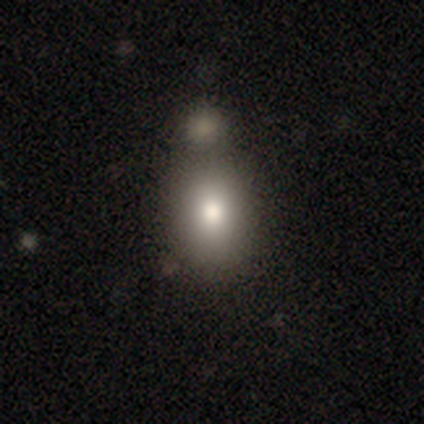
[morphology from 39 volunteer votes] This is clearly a smooth galaxy (97%). How rounded: likely in between (68%). Merging: marginally merger (45%).